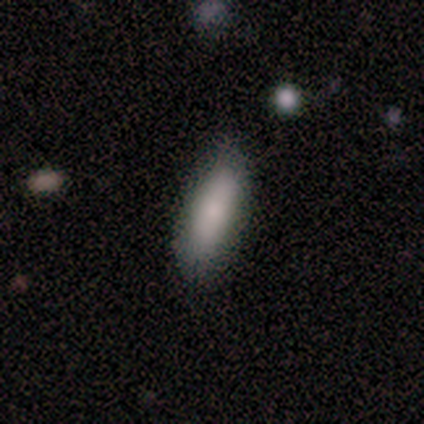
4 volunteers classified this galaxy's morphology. smooth_or_featured: smooth (p=1.00)
how_rounded: in between (p=0.75) [alt: cigar-shaped p=0.25]
merging: none (p=0.75) [alt: minor disturbance p=0.25]